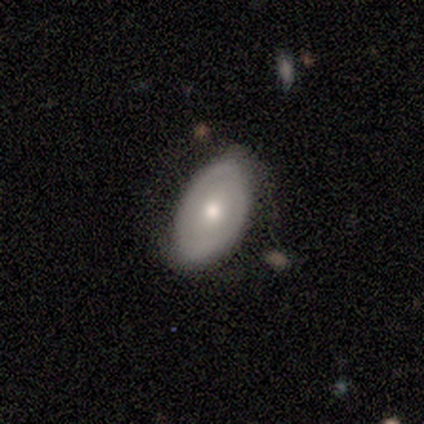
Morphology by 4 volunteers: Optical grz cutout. It shows a smooth galaxy with no disk features (50%, tied with featured or disk) that is in between round and cigar-shaped (100%). Merging: none (100%).